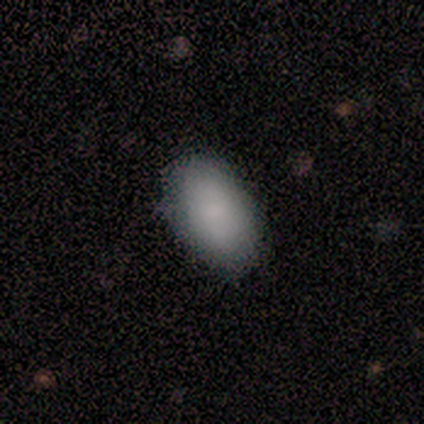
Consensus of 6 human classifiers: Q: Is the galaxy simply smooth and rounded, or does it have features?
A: smooth — 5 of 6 (83%).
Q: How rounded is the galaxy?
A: in between — 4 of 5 (80%).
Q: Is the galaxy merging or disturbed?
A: none — 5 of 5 (100%).